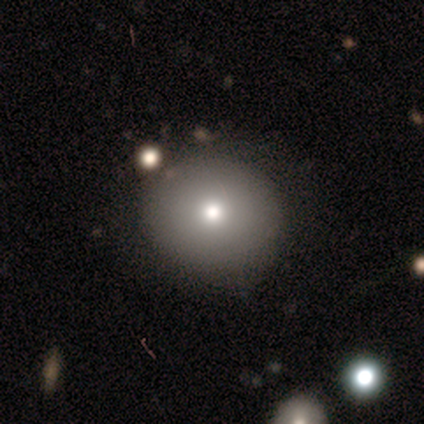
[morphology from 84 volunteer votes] Smooth or featured?
  - smooth: 73% *
  - featured or disk: 19%
  - star or artifact: 8%
How rounded?
  - round: 90% *
  - in between: 10%
  - cigar-shaped: 0%
Merging?
  - none: 82% *
  - minor disturbance: 12%
  - major disturbance: 5%
  - merger: 1%